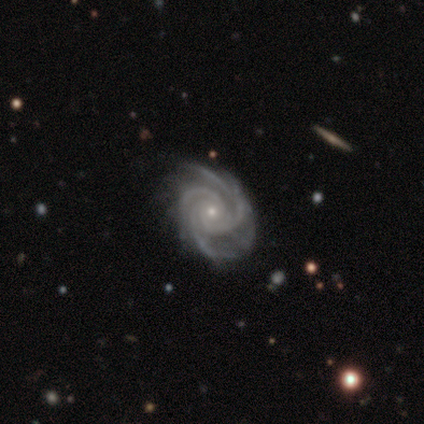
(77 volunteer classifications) Smooth or featured: featured or disk — 97% (star or artifact — 3%)
Edge-on disk: no — 99% (yes — 1%)
Bar: no — 81% (weak — 11%)
Spiral arms: yes — 100%
Spiral winding: tight — 74% (medium — 23%)
Spiral arm count: 3 — 47% (4 — 39%)
Bulge size: small — 77% (moderate — 23%)
Merging: none — 41% (minor disturbance — 8%)